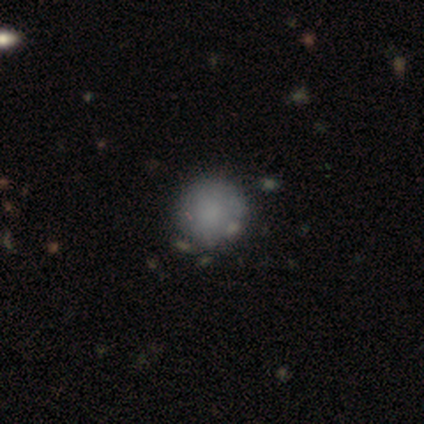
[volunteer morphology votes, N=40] Smooth or featured? smooth (78%)
How rounded? round (90%)
Merging? none (58%)